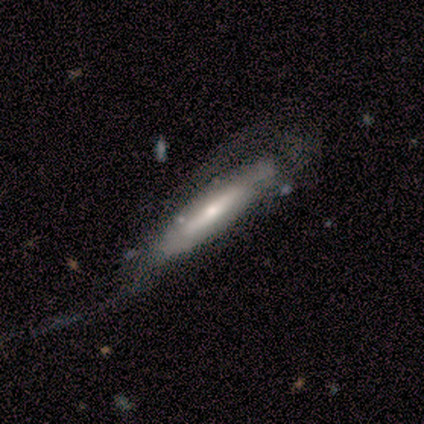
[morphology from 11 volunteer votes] smooth_or_featured: featured or disk (p=0.73) [alt: smooth p=0.27]
disk_edge_on: yes (p=0.62) [alt: no p=0.38]
edge_on_bulge: rounded (p=1.00)
merging: major disturbance (p=0.45) [alt: minor disturbance p=0.36]